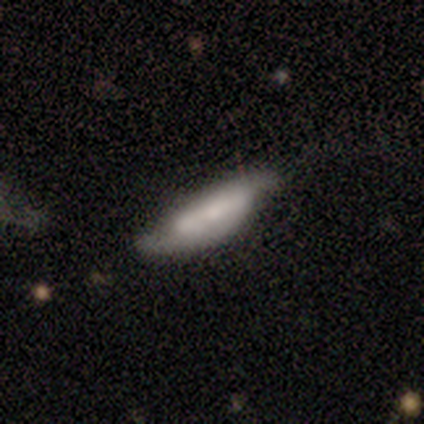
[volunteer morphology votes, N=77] A smooth galaxy with no disk features (48%) that is in between round and cigar-shaped (51%). Merging: none (22%).